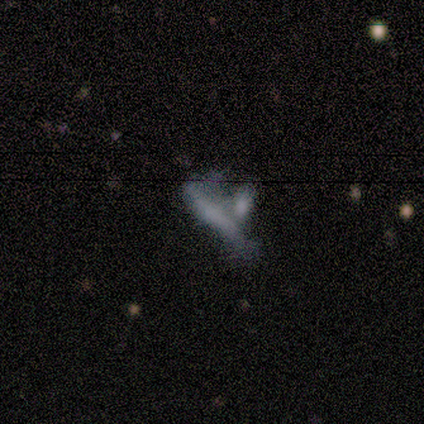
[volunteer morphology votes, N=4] Smooth or featured? smooth (75%)
How rounded? cigar-shaped (100%)
Merging? merger (75%)